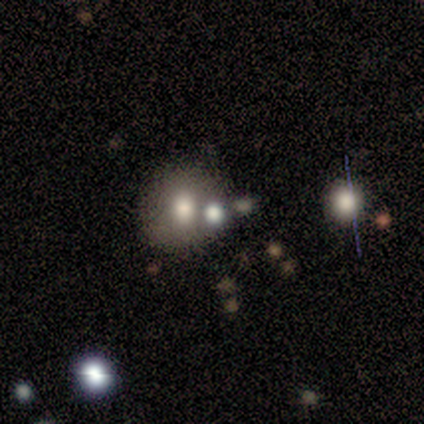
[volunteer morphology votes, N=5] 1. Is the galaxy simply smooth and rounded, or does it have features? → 40% smooth (tied), 40% star or artifact (tied), 20% featured or disk.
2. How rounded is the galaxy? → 100% round, 0% in between, 0% cigar-shaped.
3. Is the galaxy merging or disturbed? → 67% none, 33% merger, 0% minor disturbance, 0% major disturbance.